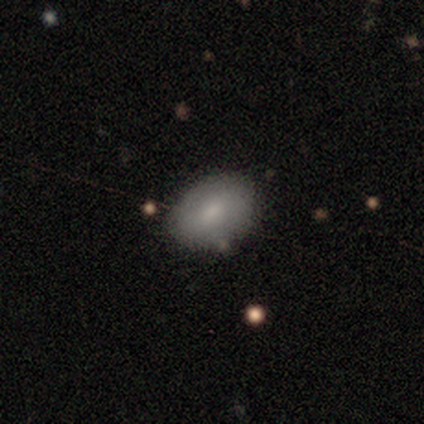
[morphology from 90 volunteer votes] Q: Smooth or featured?
A: smooth (79%); runner-up: featured or disk (14%)
Q: How rounded?
A: in between (86%); runner-up: round (13%)
Q: Merging?
A: none (83%); runner-up: minor disturbance (14%)